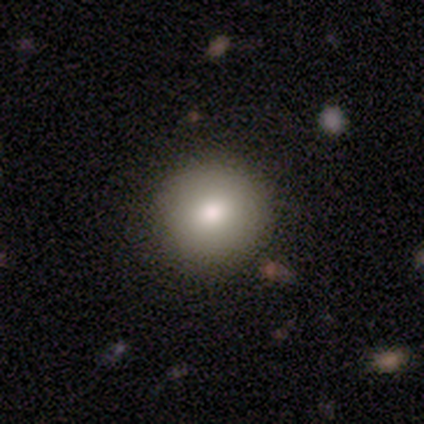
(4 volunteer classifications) Smooth or featured? smooth (75%)
How rounded? round (100%)
Merging? none (67%)